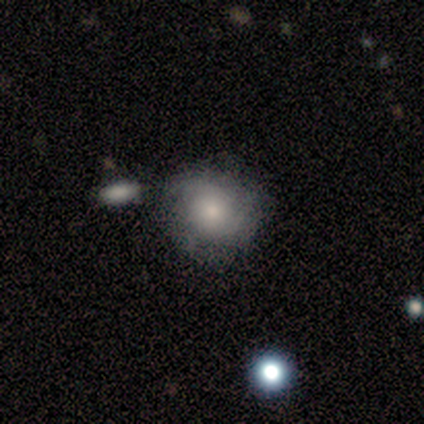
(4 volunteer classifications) A featured or disk galaxy (50%) with no bar (100%), 3 (50%, tied with can't tell) medium (100%) spiral arms (100%) and a small central bulge (100%).

Vote fractions:
- Smooth or featured? featured or disk: 50% / smooth: 25% / star or artifact: 25%
- Edge-on disk? no: 100% / yes: 0%
- Bar? no: 100% / strong: 0% / weak: 0%
- Spiral arms? yes: 100% / no: 0%
- Spiral winding? medium: 100% / tight: 0% / loose: 0%
- Spiral arm count? 3: 50% (tied) / can't tell: 50% (tied) / 1: 0% / 2: 0% / 4: 0% / more than 4: 0%
- Bulge size? small: 100% / dominant: 0% / large: 0% / moderate: 0% / none: 0%
- Merging? none: 100% / minor disturbance: 0% / major disturbance: 0% / merger: 0%